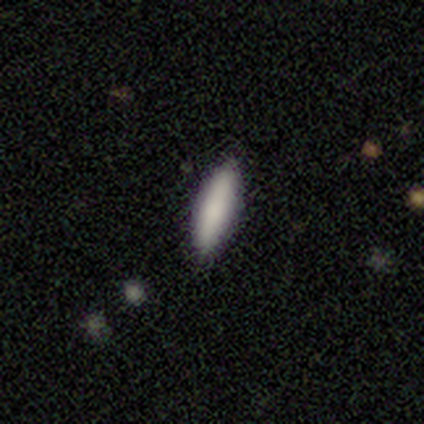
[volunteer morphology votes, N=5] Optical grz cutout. It shows a smooth galaxy with no disk features (80%) that is in between round and cigar-shaped (50%, tied with cigar-shaped). Merging: none (60%).